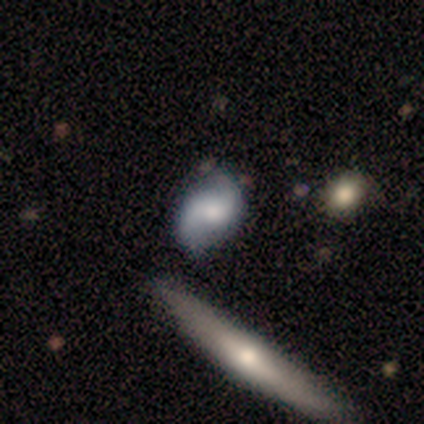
A smooth galaxy with no disk features (60%) that is round (33%, tied with in between and cigar-shaped). Merging: none (60%).